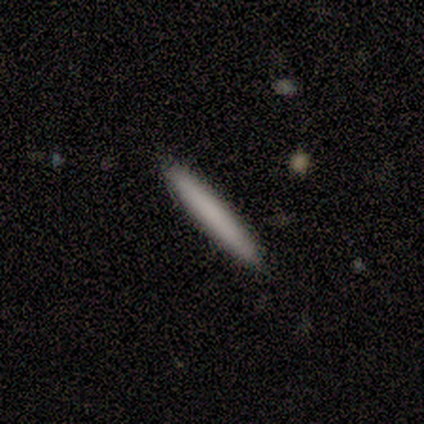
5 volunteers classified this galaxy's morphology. This is clearly a smooth galaxy (100%). How rounded: clearly cigar-shaped (100%). Merging: clearly none (100%).